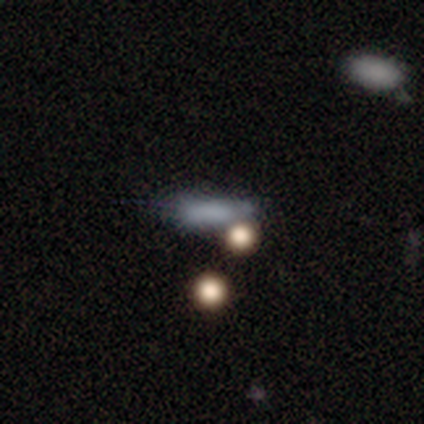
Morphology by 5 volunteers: type=smooth (40%, tied with featured or disk); roundness=in between (50%, tied with cigar-shaped); merging=none (75%).